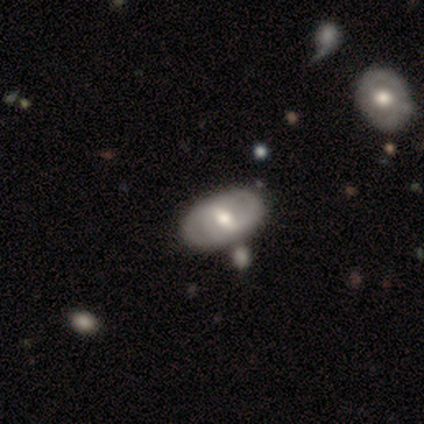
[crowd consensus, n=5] This is likely a smooth galaxy (60%). How rounded: clearly in between (100%). Merging: likely none (75%).